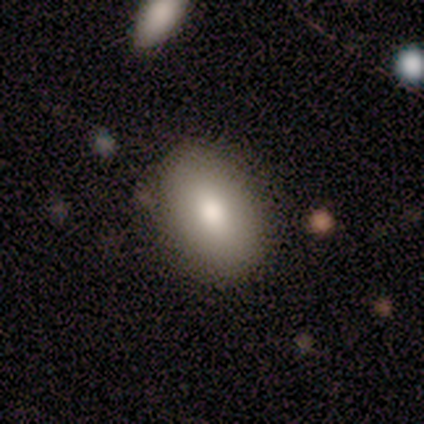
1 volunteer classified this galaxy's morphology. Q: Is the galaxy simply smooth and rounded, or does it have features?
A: featured or disk — 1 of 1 (100%).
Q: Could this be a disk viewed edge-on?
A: no — 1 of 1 (100%).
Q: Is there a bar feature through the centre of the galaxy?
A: weak — 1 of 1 (100%).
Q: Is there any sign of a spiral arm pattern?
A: no — 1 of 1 (100%).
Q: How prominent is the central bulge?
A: small — 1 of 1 (100%).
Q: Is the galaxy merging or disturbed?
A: none — 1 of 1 (100%).